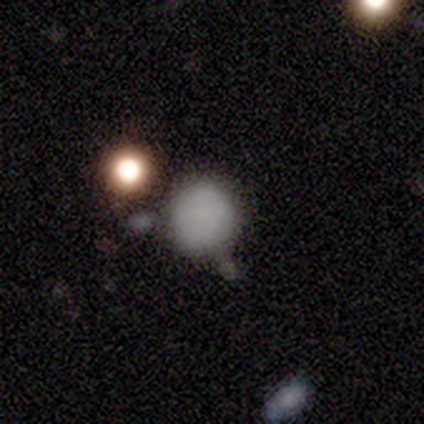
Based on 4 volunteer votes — This is likely a smooth galaxy (75%). How rounded: clearly round (100%). Merging: clearly none (100%).